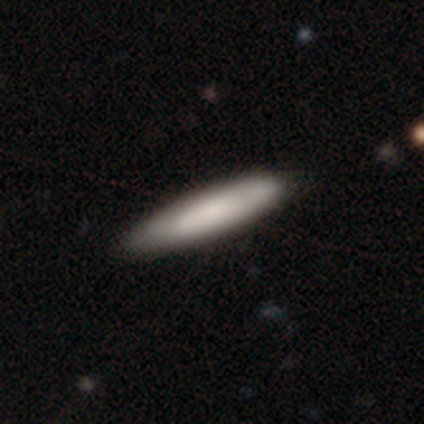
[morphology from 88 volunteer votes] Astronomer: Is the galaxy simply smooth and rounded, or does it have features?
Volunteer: smooth — 76%.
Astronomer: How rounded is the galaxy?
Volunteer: cigar-shaped — 88%.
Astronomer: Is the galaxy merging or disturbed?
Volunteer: none — 80%.